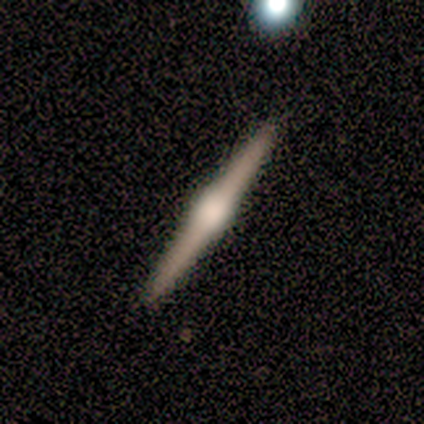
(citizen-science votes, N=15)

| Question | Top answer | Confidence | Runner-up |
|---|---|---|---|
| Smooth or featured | featured or disk | 100% | — |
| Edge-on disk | yes | 100% | — |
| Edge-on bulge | rounded | 93% | boxy (7%) |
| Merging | none | 100% | — |